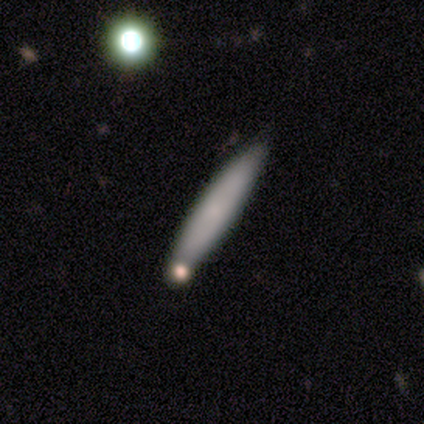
This appears to be a smooth galaxy with no disk features (60%) that is cigar-shaped (67%). Merging: none (67%).